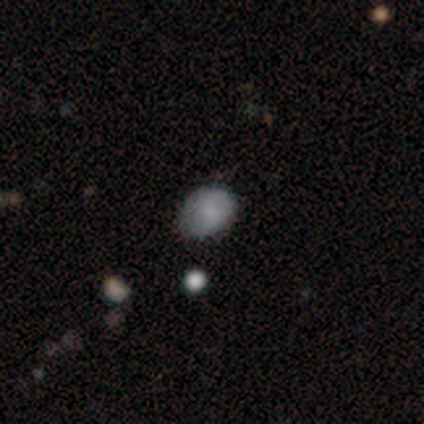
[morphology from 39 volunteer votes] type=smooth (79%); roundness=in between (61%); merging=none (71%).